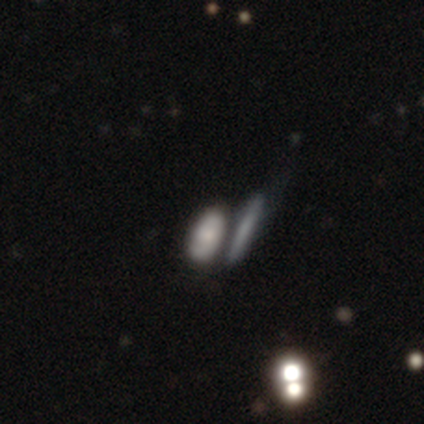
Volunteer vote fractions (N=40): This appears to be a smooth galaxy with no disk features (68%) that is in between round and cigar-shaped (78%). Merging: none (42%).